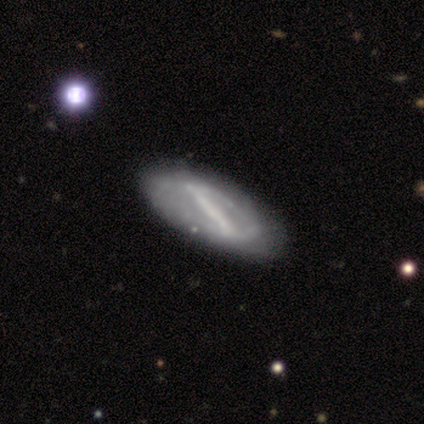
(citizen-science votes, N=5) A featured or disk galaxy (100%) with a strong bar (100%), no spiral arms (80%) and no central bulge (60%).

Vote fractions:
- Smooth or featured? featured or disk: 100% / smooth: 0% / star or artifact: 0%
- Edge-on disk? no: 100% / yes: 0%
- Bar? strong: 100% / weak: 0% / no: 0%
- Spiral arms? no: 80% / yes: 20%
- Bulge size? none: 60% / large: 20% / small: 20% / dominant: 0% / moderate: 0%
- Merging? minor disturbance: 60% / none: 40% / major disturbance: 0% / merger: 0%